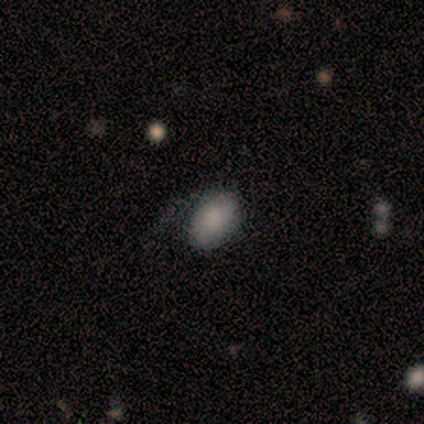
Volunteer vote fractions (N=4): This is possibly a smooth galaxy (50%, tied with featured or disk). How rounded: clearly in between (100%). Merging: likely none (75%).